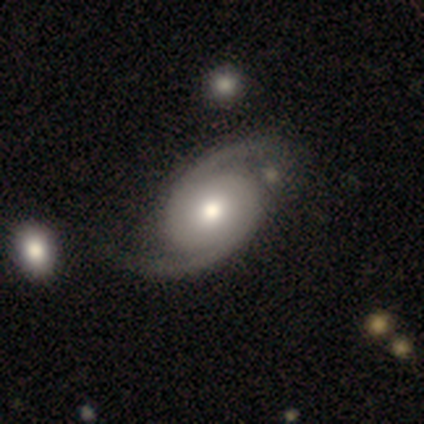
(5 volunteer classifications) Smooth or featured? featured or disk (100%)
Edge-on disk? no (100%)
Bar? no (60%)
Spiral arms? yes (100%)
Spiral winding? tight (40%, tied with medium)
Spiral arm count? 2 (100%)
Bulge size? moderate (100%)
Merging? none (80%)